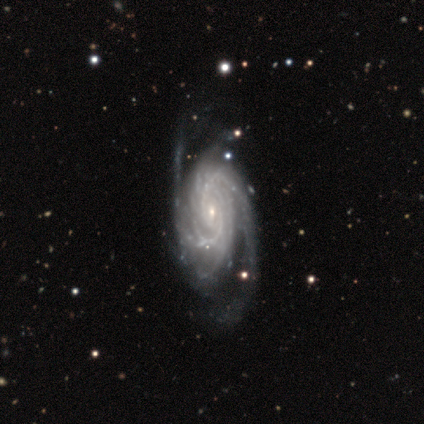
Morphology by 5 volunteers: Q: Smooth or featured?
A: featured or disk (80%); runner-up: star or artifact (20%)
Q: Edge-on disk?
A: no (100%)
Q: Bar?
A: no (75%); runner-up: weak (25%)
Q: Spiral arms?
A: yes (100%)
Q: Spiral winding?
A: tight (50%); tied with: loose (50%)
Q: Spiral arm count?
A: 3 (50%); runner-up: 2 (25%)
Q: Bulge size?
A: small (100%)
Q: Merging?
A: none (75%); runner-up: major disturbance (25%)